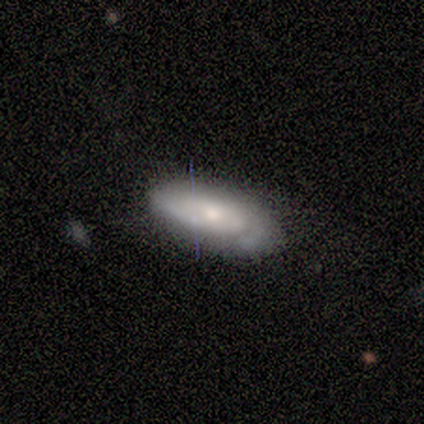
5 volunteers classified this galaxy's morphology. A smooth galaxy with no disk features (60%) that is in between round and cigar-shaped (67%). Merging: none (80%).